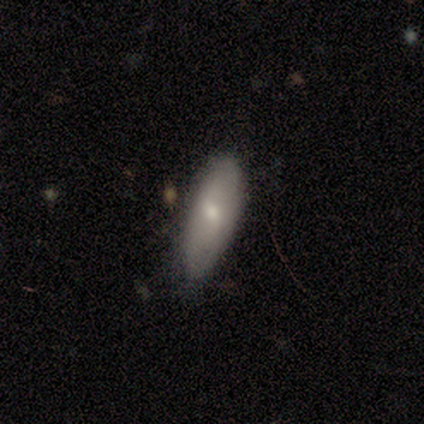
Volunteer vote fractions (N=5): Overall: smooth (60%; star or artifact 40%). How rounded: in between (67%; cigar-shaped 33%). Merging: none (67%; minor disturbance 33%).